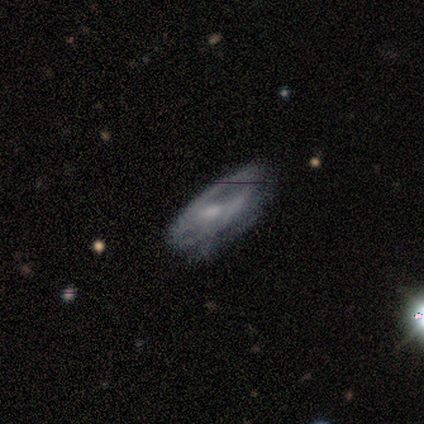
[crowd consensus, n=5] Smooth or featured? featured or disk (60%)
Edge-on disk? no (100%)
Bar? weak (67%)
Spiral arms? yes (100%)
Spiral winding? tight (67%)
Spiral arm count? can't tell (67%)
Bulge size? small (67%)
Merging? none (50%, tied with minor disturbance)